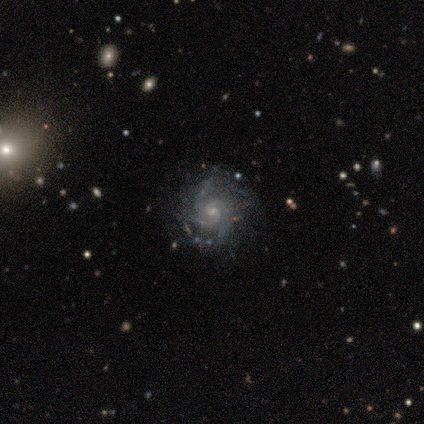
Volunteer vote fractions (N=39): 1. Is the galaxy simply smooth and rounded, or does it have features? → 90% featured or disk, 10% star or artifact, 0% smooth.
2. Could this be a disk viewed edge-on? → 100% no, 0% yes.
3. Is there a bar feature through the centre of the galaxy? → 80% no, 20% weak, 0% strong.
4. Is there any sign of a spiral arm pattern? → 97% yes, 3% no.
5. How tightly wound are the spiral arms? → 53% tight, 38% medium, 9% loose.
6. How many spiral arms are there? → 32% 3, 26% can't tell, 21% 2, 12% 4, 9% more than 4, 0% 1.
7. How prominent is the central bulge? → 54% small, 37% moderate, 9% none, 0% dominant, 0% large.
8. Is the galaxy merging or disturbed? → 69% none, 23% minor disturbance, 6% major disturbance, 3% merger.